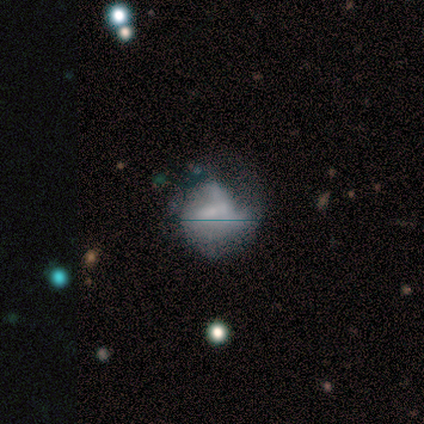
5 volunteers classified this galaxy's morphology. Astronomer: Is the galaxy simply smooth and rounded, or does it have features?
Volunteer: featured or disk — 60% (runner-up: smooth, 40%).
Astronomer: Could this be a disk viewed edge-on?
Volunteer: no — 100%.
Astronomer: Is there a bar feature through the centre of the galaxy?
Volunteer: weak — 67%.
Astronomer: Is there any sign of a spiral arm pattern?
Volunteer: yes — 67%.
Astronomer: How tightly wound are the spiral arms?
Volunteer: tight — 50%, tied with loose at 50%.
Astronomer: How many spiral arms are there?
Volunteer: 3 — 100%.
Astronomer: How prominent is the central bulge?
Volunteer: moderate — 33%, tied with small and none at 33%.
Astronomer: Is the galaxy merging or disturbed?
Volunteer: major disturbance — 60%.